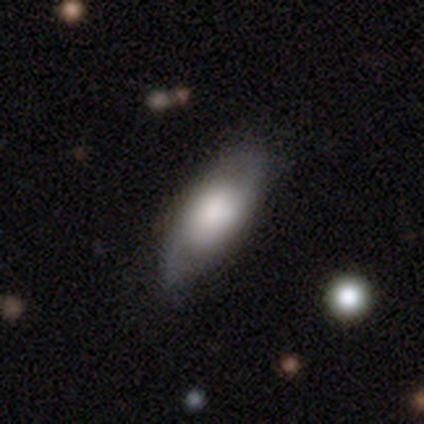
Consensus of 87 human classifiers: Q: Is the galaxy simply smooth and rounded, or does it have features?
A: smooth — 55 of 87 (63%).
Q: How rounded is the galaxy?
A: in between — 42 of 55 (76%).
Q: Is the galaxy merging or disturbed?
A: none — 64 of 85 (75%).